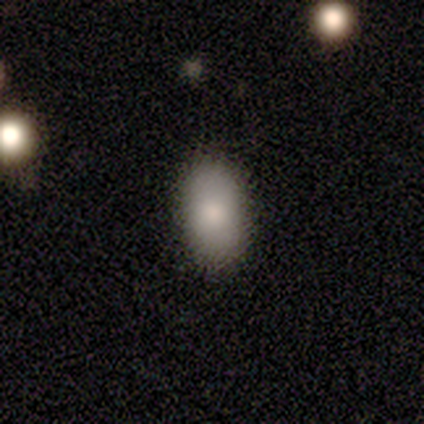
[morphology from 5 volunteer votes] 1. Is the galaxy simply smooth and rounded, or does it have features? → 100% smooth, 0% featured or disk, 0% star or artifact.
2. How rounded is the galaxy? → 100% in between, 0% round, 0% cigar-shaped.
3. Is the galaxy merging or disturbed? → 100% none, 0% minor disturbance, 0% major disturbance, 0% merger.